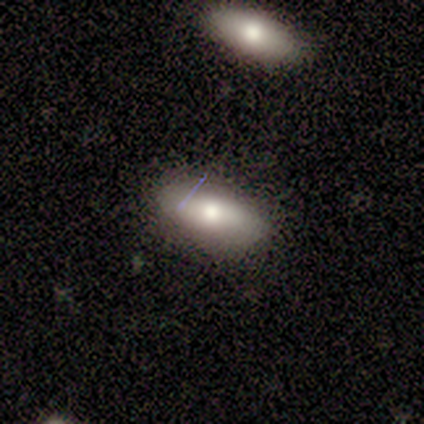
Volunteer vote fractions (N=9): Volunteers were most divided on "merging": none: 78%, minor disturbance: 22%, major disturbance: 0%, merger: 0%. More confident: how rounded — in between (100%); smooth or featured — smooth (89%).